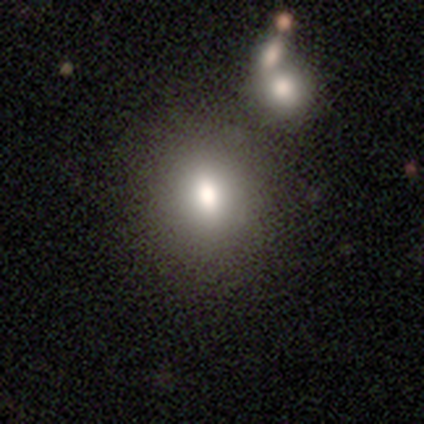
Smooth or featured: smooth — 80% (star or artifact — 20%)
How rounded: round — 75% (in between — 25%)
Merging: none — 75% (minor disturbance — 25%)